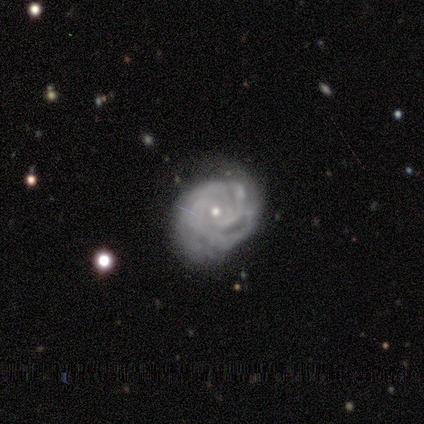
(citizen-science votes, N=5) featured or disk 100%, smooth 0%, star or artifact 0%. Down the decision tree: edge-on disk — no (100%); bar — no (80%); spiral arms — yes (100%); spiral arm count — can't tell (40%); spiral winding — tight (80%); bulge size — small (80%); merging — minor disturbance (60%).